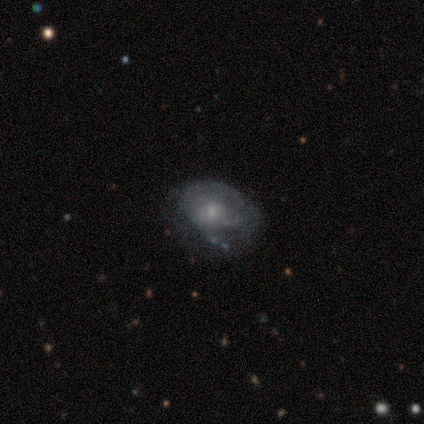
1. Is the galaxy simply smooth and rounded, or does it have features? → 80% featured or disk, 20% smooth, 0% star or artifact.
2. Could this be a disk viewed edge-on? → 100% no, 0% yes.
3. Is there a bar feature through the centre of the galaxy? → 100% no, 0% strong, 0% weak.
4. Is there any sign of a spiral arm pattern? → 75% yes, 25% no.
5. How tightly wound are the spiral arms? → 67% tight, 33% loose, 0% medium.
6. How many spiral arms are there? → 33% 1 (tied), 33% 2 (tied), 33% can't tell (tied), 0% 3, 0% 4, 0% more than 4.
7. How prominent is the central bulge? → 50% moderate (tied), 50% small (tied), 0% dominant, 0% large, 0% none.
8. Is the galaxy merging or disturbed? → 40% none (tied), 40% minor disturbance (tied), 20% major disturbance, 0% merger.